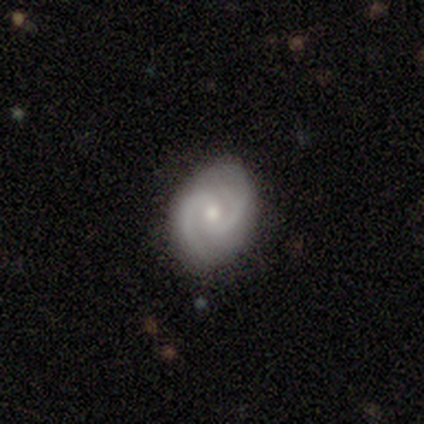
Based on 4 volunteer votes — This appears to be a featured or disk galaxy (100%) with no bar (75%), 2 (100%) medium (50%) spiral arms (100%) and a moderate central bulge (50%). Merging: none (100%).